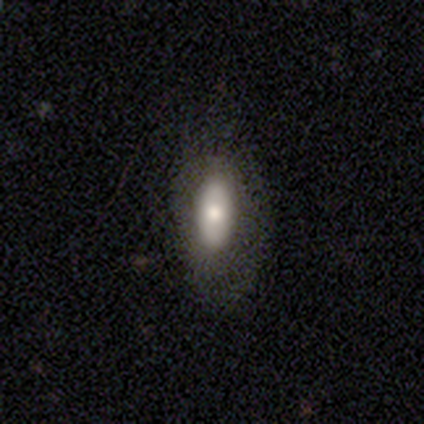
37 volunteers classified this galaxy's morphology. smooth_or_featured: smooth (p=0.65) [alt: featured or disk p=0.27]
how_rounded: in between (p=0.79) [alt: cigar-shaped p=0.21]
merging: none (p=0.82) [alt: major disturbance p=0.15]